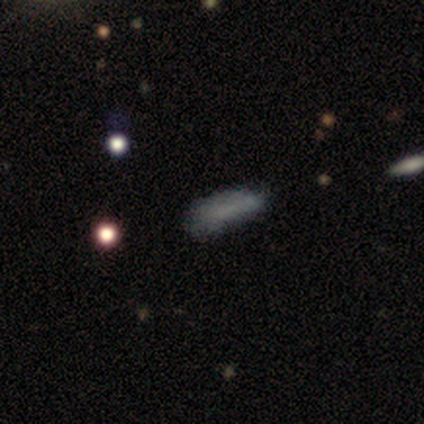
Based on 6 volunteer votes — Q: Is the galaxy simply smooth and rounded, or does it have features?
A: smooth — 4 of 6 (67%).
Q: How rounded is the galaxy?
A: in between — 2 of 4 (50%).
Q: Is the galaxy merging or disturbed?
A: minor disturbance — 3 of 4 (75%).